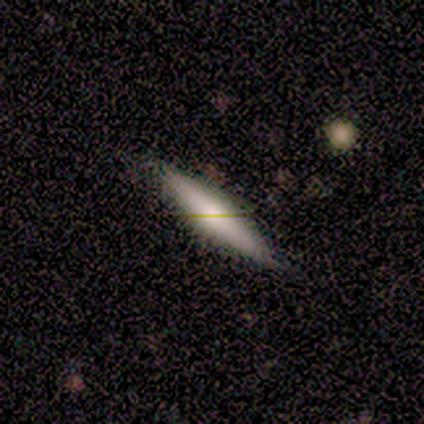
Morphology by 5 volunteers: Smooth or featured?
  - smooth: 60% *
  - featured or disk: 40%
  - star or artifact: 0%
How rounded?
  - cigar-shaped: 67% *
  - in between: 33%
  - round: 0%
Merging?
  - none: 80% *
  - minor disturbance: 20%
  - major disturbance: 0%
  - merger: 0%